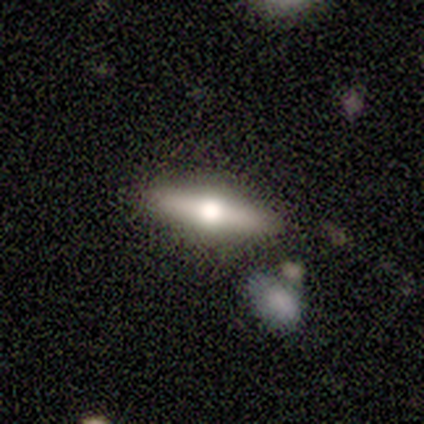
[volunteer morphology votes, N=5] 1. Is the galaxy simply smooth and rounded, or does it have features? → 100% featured or disk, 0% smooth, 0% star or artifact.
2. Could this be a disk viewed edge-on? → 100% yes, 0% no.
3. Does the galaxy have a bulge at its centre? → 100% rounded, 0% boxy, 0% none.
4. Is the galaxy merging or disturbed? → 60% merger, 40% none, 0% minor disturbance, 0% major disturbance.